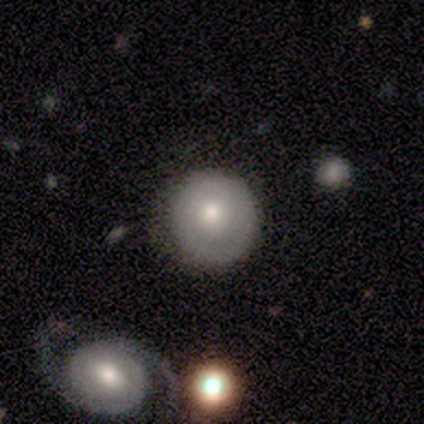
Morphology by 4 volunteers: smooth-or-featured: smooth: 50% (tied) | featured or disk: 50% (tied) | star or artifact: 0%
  how-rounded: round: 100% | in between: 0% | cigar-shaped: 0%
  merging: none: 75% | minor disturbance: 25% | major disturbance: 0% | merger: 0%